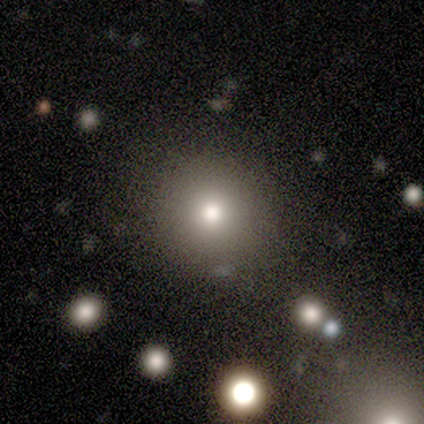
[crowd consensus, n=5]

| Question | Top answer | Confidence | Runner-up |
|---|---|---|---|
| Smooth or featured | smooth | 80% | star or artifact (20%) |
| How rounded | round | 75% | in between (25%) |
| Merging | none | 75% | minor disturbance (25%) |